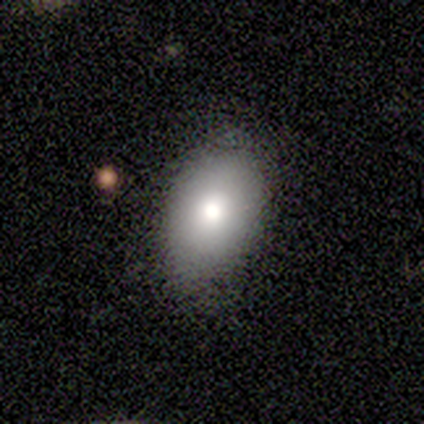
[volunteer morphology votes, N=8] Smooth or featured: smooth — 88% (star or artifact — 12%)
How rounded: in between — 86% (round — 14%)
Merging: none — 71% (minor disturbance — 29%)